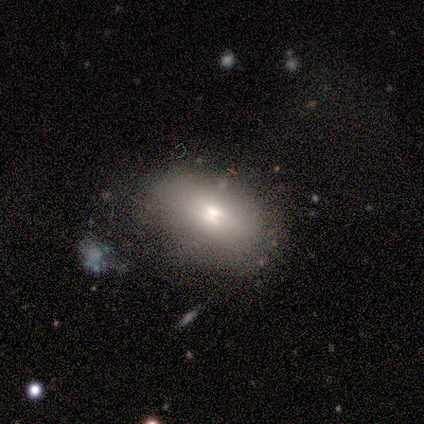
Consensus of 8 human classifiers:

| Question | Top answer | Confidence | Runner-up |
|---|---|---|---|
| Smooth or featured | smooth | 62% | featured or disk (38%) |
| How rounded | in between | 100% | — |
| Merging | none | 50% | minor disturbance (38%) |